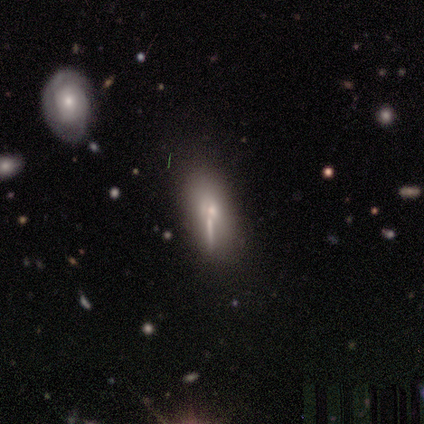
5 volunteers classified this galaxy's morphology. Smooth or featured? featured or disk (60%)
Edge-on disk? no (67%)
Bar? strong (50%, tied with no)
Spiral arms? no (100%)
Bulge size? moderate (100%)
Merging? none (75%)